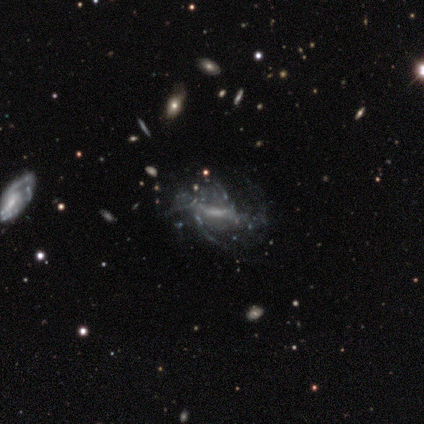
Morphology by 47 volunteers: A featured or disk galaxy (94%) with a strong bar (42%), loose (60%) spiral arms (62%) and no central bulge (48%).

Vote fractions:
- Smooth or featured? featured or disk: 94% / star or artifact: 4% / smooth: 2%
- Edge-on disk? no: 91% / yes: 9%
- Bar? strong: 42% / weak: 32% / no: 25%
- Spiral arms? yes: 62% / no: 38%
- Spiral winding? loose: 60% / medium: 24% / tight: 16%
- Spiral arm count? can't tell: 76% / 4: 8% / more than 4: 8% / 1: 4% / 2: 4% / 3: 0%
- Bulge size? none: 48% / small: 32% / large: 10% / moderate: 10% / dominant: 0%
- Merging? major disturbance: 53% / none: 22% / minor disturbance: 18% / merger: 7%